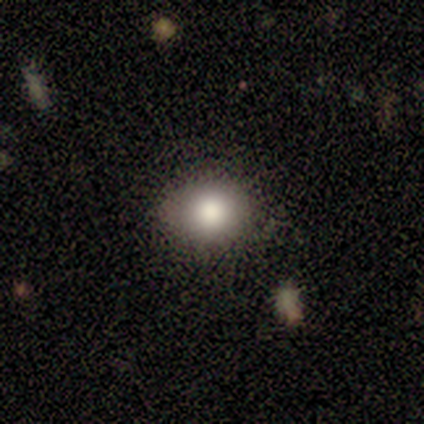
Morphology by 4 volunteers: This appears to be a smooth galaxy with no disk features (100%) that is round (100%). Merging: none (75%).